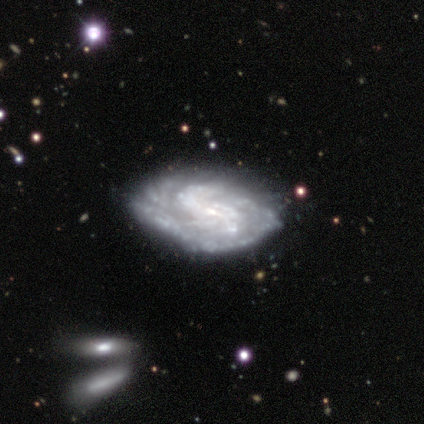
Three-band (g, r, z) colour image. It shows a featured or disk galaxy (86%) with a weak bar (36%, tied with no), tight (73%) spiral arms (100%) and a small central bulge (45%). Merging: none (85%).